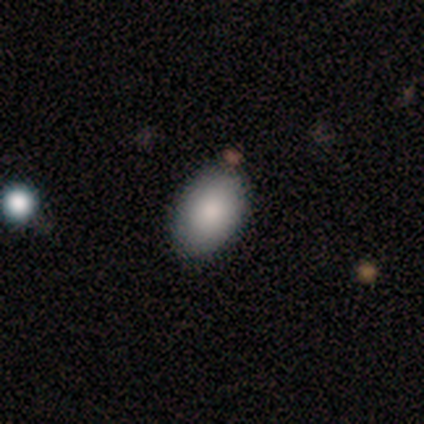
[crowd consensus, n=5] Smooth or featured?
  - smooth: 100% *
  - featured or disk: 0%
  - star or artifact: 0%
How rounded?
  - in between: 100% *
  - round: 0%
  - cigar-shaped: 0%
Merging?
  - none: 100% *
  - minor disturbance: 0%
  - major disturbance: 0%
  - merger: 0%